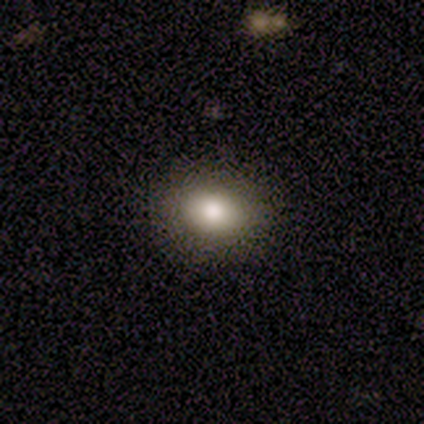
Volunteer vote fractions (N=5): Smooth or featured? 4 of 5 (80%) said smooth. How rounded? 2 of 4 (50%, tied with in between) said round. Merging? 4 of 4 (100%) said none.